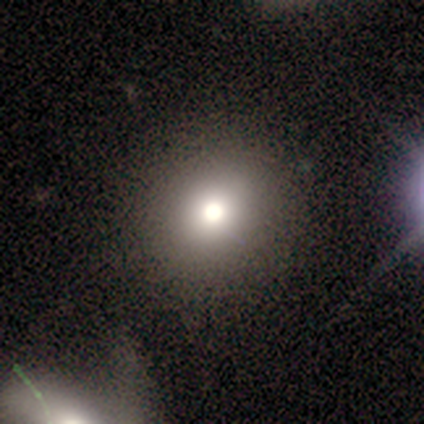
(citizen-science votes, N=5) Smooth or featured: smooth — 60% (star or artifact — 40%)
How rounded: round — 67% (in between — 33%)
Merging: none — 67% (merger — 33%)